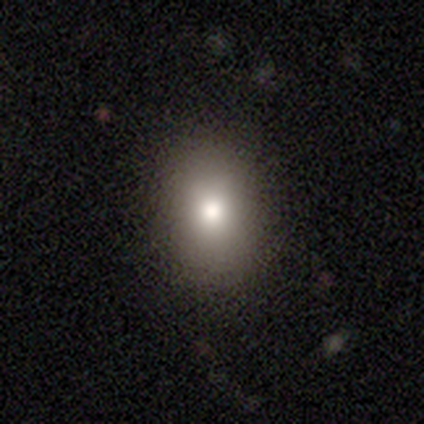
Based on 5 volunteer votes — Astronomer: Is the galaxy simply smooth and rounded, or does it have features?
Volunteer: smooth — 100%.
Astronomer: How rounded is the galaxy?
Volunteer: in between — 100%.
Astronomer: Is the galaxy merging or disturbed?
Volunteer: none — 100%.